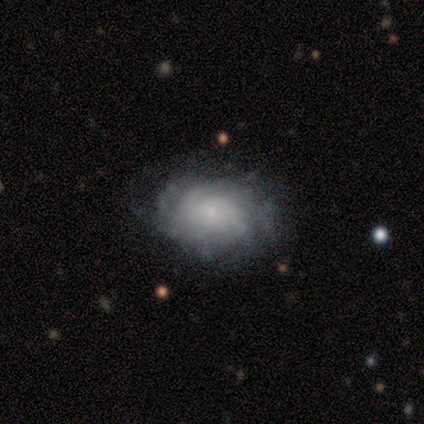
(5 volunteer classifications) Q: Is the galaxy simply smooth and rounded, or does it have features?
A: featured or disk — 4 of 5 (80%).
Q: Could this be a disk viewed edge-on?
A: no — 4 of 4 (100%).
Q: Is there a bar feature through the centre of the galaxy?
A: no — 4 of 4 (100%).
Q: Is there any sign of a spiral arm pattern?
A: yes — 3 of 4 (75%).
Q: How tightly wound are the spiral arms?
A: tight — 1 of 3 (33%, tied with medium and loose).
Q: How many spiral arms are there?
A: can't tell — 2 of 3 (67%).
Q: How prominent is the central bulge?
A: small — 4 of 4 (100%).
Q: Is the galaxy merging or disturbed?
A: none — 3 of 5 (60%).